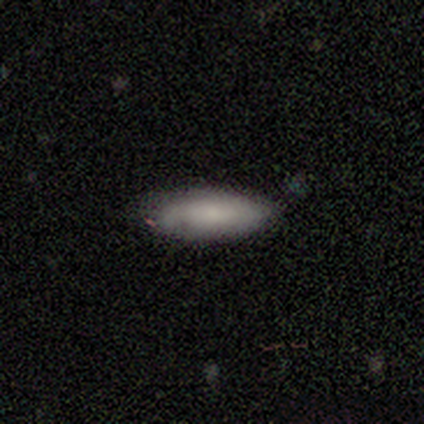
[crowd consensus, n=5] smooth-or-featured: smooth: 80% | featured or disk: 20% | star or artifact: 0%
  how-rounded: in between: 75% | cigar-shaped: 25% | round: 0%
  merging: none: 80% | minor disturbance: 20% | major disturbance: 0% | merger: 0%